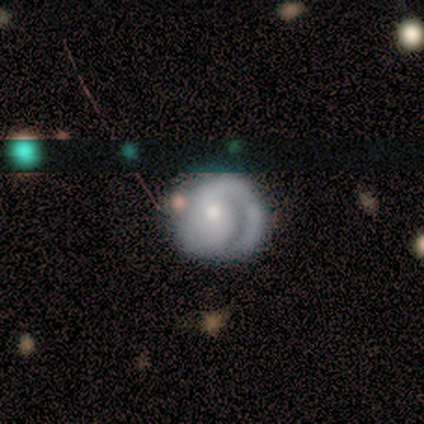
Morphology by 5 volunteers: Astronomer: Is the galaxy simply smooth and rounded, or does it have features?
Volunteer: featured or disk — 100%.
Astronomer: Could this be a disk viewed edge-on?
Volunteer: no — 100%.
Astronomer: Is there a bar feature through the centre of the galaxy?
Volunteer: no — 60% (runner-up: strong, 40%).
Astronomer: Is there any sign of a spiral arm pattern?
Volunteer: yes — 80%.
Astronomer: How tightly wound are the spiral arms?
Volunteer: tight — 75%.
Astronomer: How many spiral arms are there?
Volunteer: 1 — 75%.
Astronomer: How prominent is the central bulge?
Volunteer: small — 80%.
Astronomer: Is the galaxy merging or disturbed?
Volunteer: none — 80%.